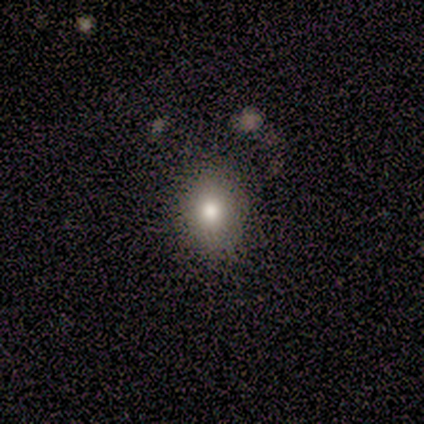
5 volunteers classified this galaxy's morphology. This appears to be a smooth galaxy with no disk features (80%) that is in between round and cigar-shaped (75%). Merging: none (75%).